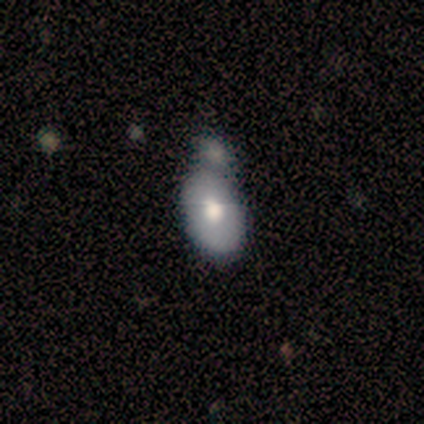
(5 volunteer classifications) Smooth or featured?
  - featured or disk: 60% *
  - smooth: 40%
  - star or artifact: 0%
Edge-on disk?
  - yes: 67% *
  - no: 33%
Edge-on bulge?
  - rounded: 100% *
  - boxy: 0%
  - none: 0%
Merging?
  - minor disturbance: 40% * (tied)
  - merger: 40% * (tied)
  - none: 20%
  - major disturbance: 0%